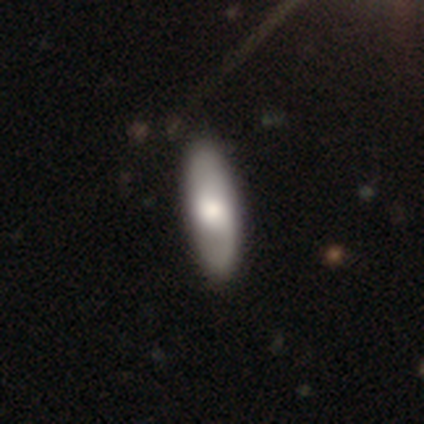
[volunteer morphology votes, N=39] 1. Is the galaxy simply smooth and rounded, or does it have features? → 49% smooth (tied), 49% featured or disk (tied), 3% star or artifact.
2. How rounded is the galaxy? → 74% in between, 26% cigar-shaped, 0% round.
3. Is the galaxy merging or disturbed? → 71% none, 5% minor disturbance, 0% major disturbance, 0% merger.